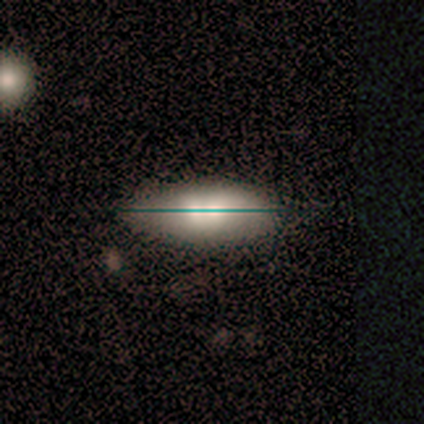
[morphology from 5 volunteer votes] A smooth galaxy with no disk features (60%) that is in between round and cigar-shaped (100%).

Vote fractions:
- Smooth or featured? smooth: 60% / star or artifact: 40% / featured or disk: 0%
- How rounded? in between: 100% / round: 0% / cigar-shaped: 0%
- Merging? minor disturbance: 67% / merger: 33% / none: 0% / major disturbance: 0%